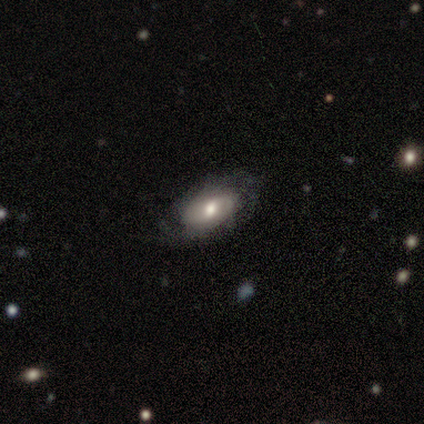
Smooth or featured? 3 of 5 (60%) said smooth. How rounded? 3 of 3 (100%) said in between. Merging? 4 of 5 (80%) said none.